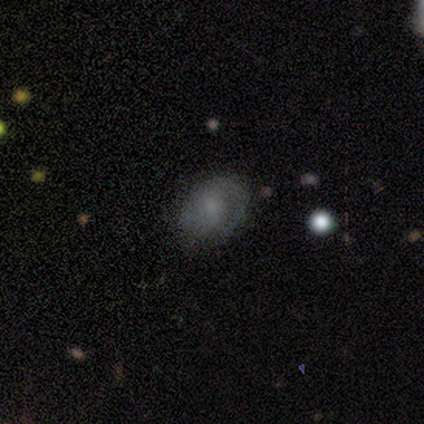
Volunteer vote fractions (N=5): Smooth or featured? 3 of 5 (60%) said featured or disk. Edge-on disk? 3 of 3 (100%) said no. Bar? 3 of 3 (100%) said no. Spiral arms? 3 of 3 (100%) said yes. Spiral winding? 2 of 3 (67%) said medium. Spiral arm count? 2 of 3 (67%) said can't tell. Bulge size? 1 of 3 (33%, tied with small and none) said large. Merging? 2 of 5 (40%, tied with minor disturbance) said none.